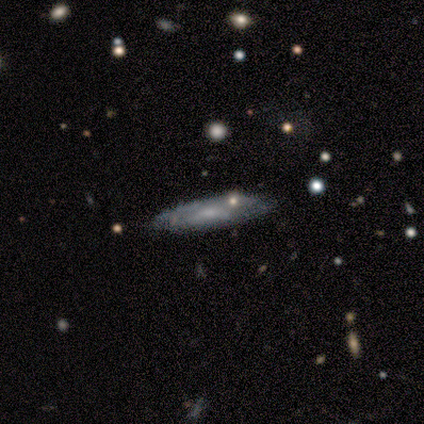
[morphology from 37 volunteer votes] Smooth or featured? featured or disk (54%)
Edge-on disk? yes (50%, tied with no)
Edge-on bulge? rounded (60%)
Merging? none (68%)